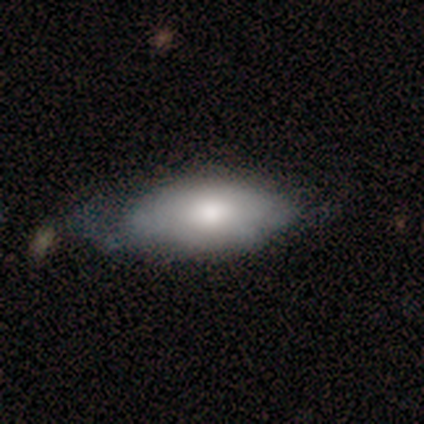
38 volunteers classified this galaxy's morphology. type=smooth (71%); roundness=in between (93%); merging=minor disturbance (56%).